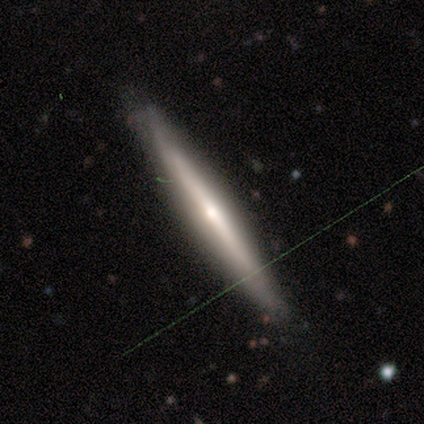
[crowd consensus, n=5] smooth-or-featured: featured or disk: 60% | smooth: 40% | star or artifact: 0%
  disk-edge-on: yes: 67% | no: 33%
    edge-on-bulge: rounded: 100% | boxy: 0% | none: 0%
  merging: none: 60% | minor disturbance: 40% | major disturbance: 0% | merger: 0%